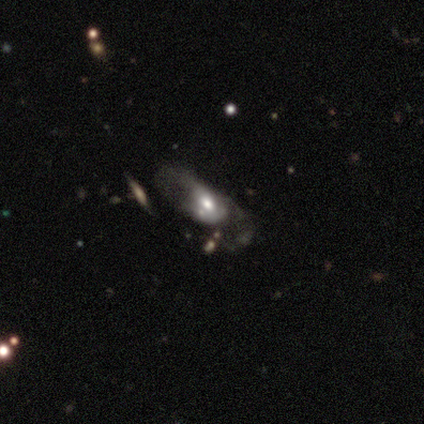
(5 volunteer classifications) Overall: featured or disk (60%; smooth 20%). Edge-on disk: no (100%). Bar: no (67%; weak 33%). Spiral arms: yes (67%; no 33%). Spiral arm count: 2 (100%). Spiral winding: medium (50%, tied with loose). Bulge size: moderate (67%; small 33%). Merging: major disturbance (50%, tied with merger).